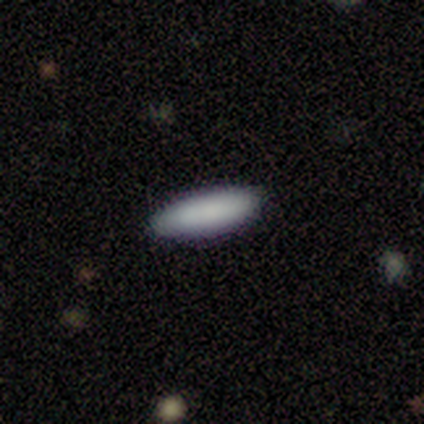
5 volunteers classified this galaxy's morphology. smooth 100%, featured or disk 0%, star or artifact 0%. Down the decision tree: how rounded — cigar-shaped (60%); merging — none (80%).